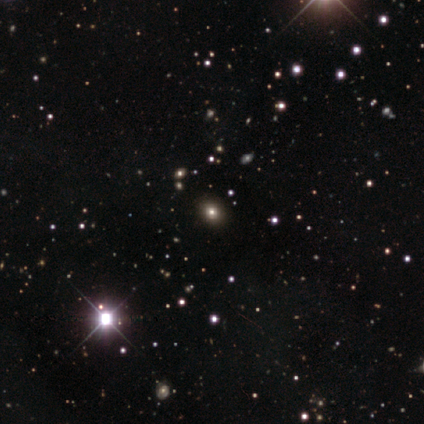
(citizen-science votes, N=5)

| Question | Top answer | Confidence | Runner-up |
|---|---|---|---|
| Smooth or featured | star or artifact | 80% | smooth (20%) |